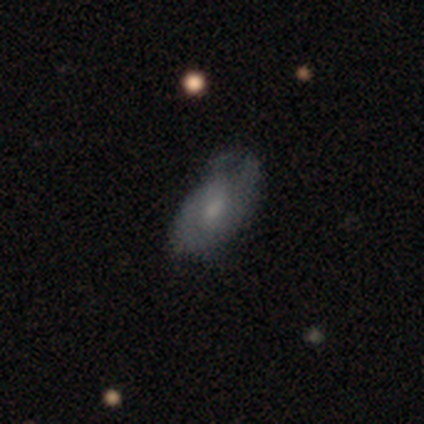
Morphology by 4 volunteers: This appears to be a smooth galaxy with no disk features (50%, tied with featured or disk) that is round (50%, tied with in between). Merging: none (50%).